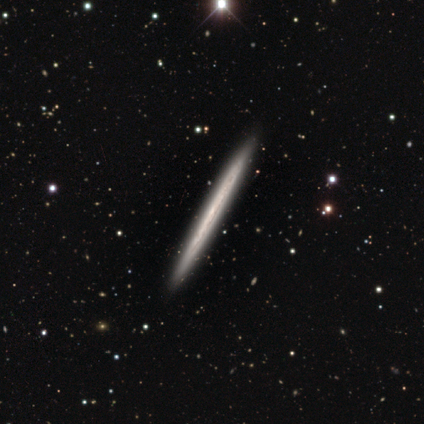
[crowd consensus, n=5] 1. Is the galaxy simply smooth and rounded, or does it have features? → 100% featured or disk, 0% smooth, 0% star or artifact.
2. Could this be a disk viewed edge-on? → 100% yes, 0% no.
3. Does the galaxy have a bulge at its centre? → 60% none, 40% rounded, 0% boxy.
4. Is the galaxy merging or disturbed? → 100% none, 0% minor disturbance, 0% major disturbance, 0% merger.